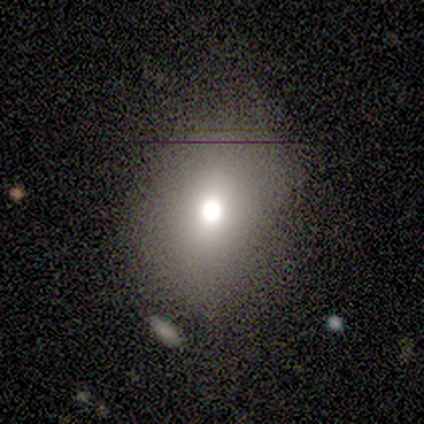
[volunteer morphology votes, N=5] smooth_or_featured: smooth (p=1.00)
how_rounded: in between (p=0.60) [alt: round p=0.40]
merging: none (p=0.40) [tied with: minor disturbance p=0.40]